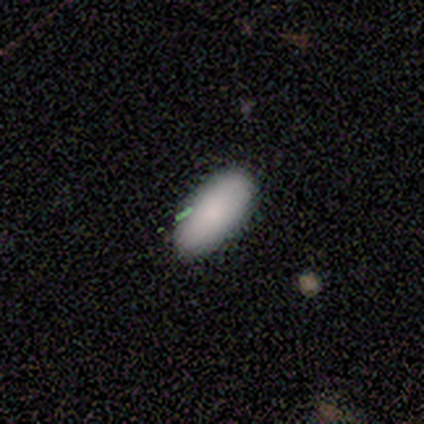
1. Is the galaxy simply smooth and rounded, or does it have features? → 75% smooth, 25% star or artifact, 0% featured or disk.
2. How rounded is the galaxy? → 100% in between, 0% round, 0% cigar-shaped.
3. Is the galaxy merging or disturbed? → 100% none, 0% minor disturbance, 0% major disturbance, 0% merger.